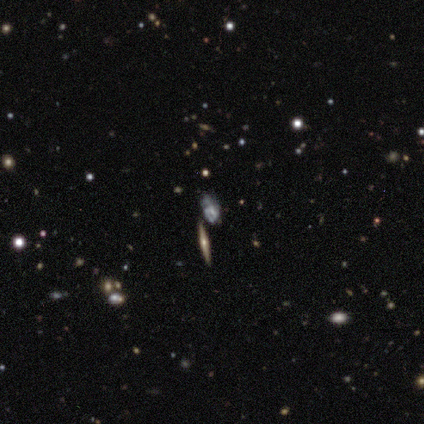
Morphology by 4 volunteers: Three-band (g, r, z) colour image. It shows a star or artifact, not a galaxy (50%).